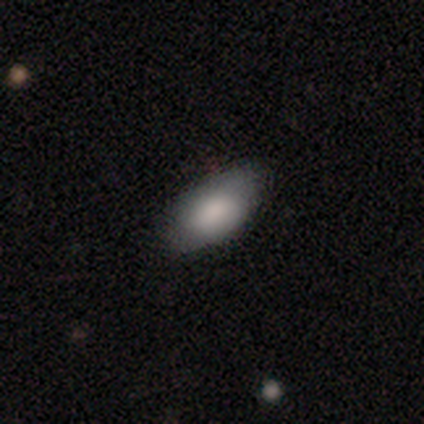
Overall: smooth (75%). How rounded: in between (100%). Merging: none (75%).